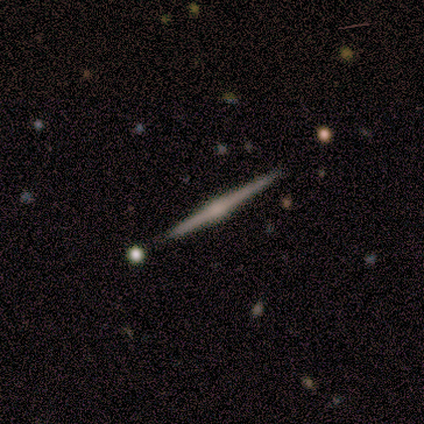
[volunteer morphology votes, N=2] Smooth or featured?
  - featured or disk: 100% *
  - smooth: 0%
  - star or artifact: 0%
Edge-on disk?
  - yes: 100% *
  - no: 0%
Edge-on bulge?
  - boxy: 50% * (tied)
  - rounded: 50% * (tied)
  - none: 0%
Merging?
  - none: 100% *
  - minor disturbance: 0%
  - major disturbance: 0%
  - merger: 0%